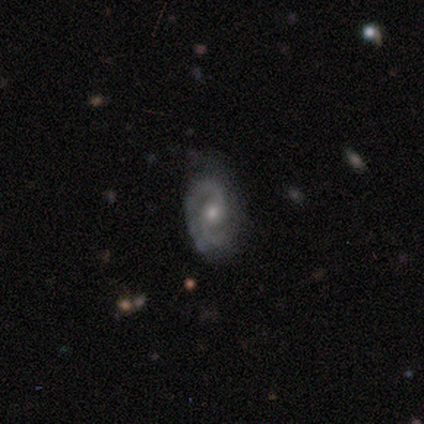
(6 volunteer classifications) smooth-or-featured: featured or disk: 83% | smooth: 17% | star or artifact: 0%
  disk-edge-on: no: 100% | yes: 0%
    bar: no: 80% | weak: 20% | strong: 0%
    has-spiral-arms: yes: 100% | no: 0%
      spiral-winding: tight: 80% | medium: 20% | loose: 0%
      spiral-arm-count: 2: 80% | 1: 20% | 3: 0% | 4: 0% | more than 4: 0% | can't tell: 0%
    bulge-size: moderate: 60% | small: 40% | dominant: 0% | large: 0% | none: 0%
  merging: minor disturbance: 50% | none: 33% | major disturbance: 17% | merger: 0%